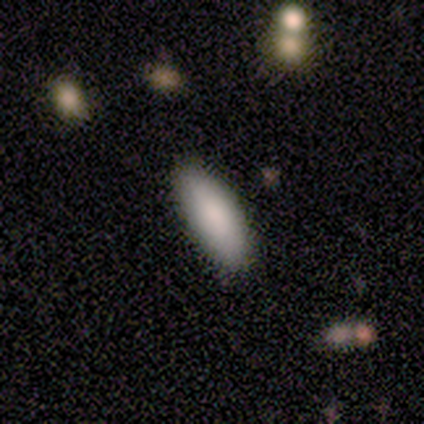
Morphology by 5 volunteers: Q: Smooth or featured?
A: smooth (60%); runner-up: featured or disk (40%)
Q: How rounded?
A: in between (100%)
Q: Merging?
A: none (100%)